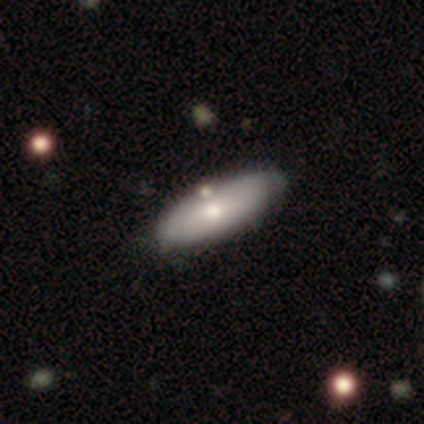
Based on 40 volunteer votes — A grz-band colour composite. It shows a smooth galaxy with no disk features (70%) that is in between round and cigar-shaped (75%). Merging: none (79%).